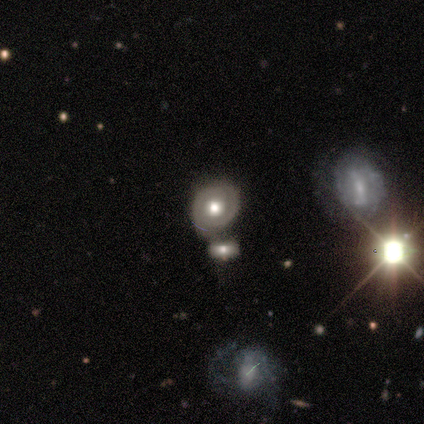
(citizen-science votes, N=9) A featured or disk galaxy (78%) with no bar (71%), 2 (100%) medium (50%) spiral arms (57%) and a moderate central bulge (71%).

Vote fractions:
- Smooth or featured? featured or disk: 78% / smooth: 11% / star or artifact: 11%
- Edge-on disk? no: 100% / yes: 0%
- Bar? no: 71% / strong: 14% / weak: 14%
- Spiral arms? yes: 57% / no: 43%
- Spiral winding? medium: 50% / tight: 25% / loose: 25%
- Spiral arm count? 2: 100% / 1: 0% / 3: 0% / 4: 0% / more than 4: 0% / can't tell: 0%
- Bulge size? moderate: 71% / large: 29% / dominant: 0% / small: 0% / none: 0%
- Merging? none: 38% (tied) / merger: 38% (tied) / minor disturbance: 25% / major disturbance: 0%